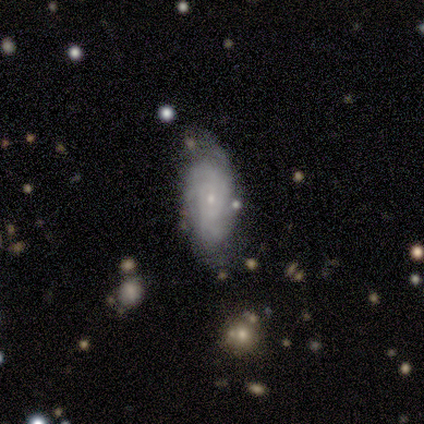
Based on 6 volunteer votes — This appears to be a featured or disk galaxy (100%) with no bar (100%), 3 (40%, tied with 4) tight (60%) spiral arms (100%) and a small central bulge (60%). Merging: none (83%).